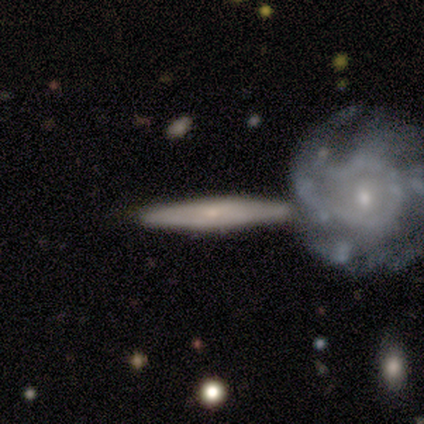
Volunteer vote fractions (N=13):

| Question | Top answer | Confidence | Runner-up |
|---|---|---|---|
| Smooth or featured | featured or disk | 69% | smooth (31%) |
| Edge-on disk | yes | 67% | no (33%) |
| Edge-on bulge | none | 50% | tied: rounded (50%) |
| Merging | none | 54% | merger (46%) |